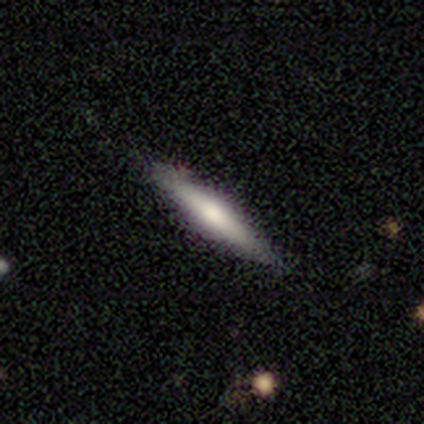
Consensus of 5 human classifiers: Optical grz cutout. It shows a smooth galaxy with no disk features (80%) that is in between round and cigar-shaped (50%, tied with cigar-shaped). Merging: none (80%).